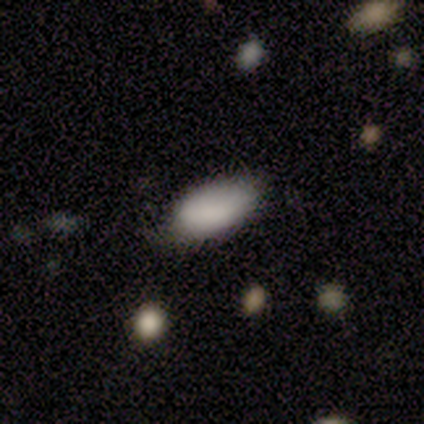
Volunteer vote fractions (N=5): Overall: smooth (80%). How rounded: in between (50%; round 25%). Merging: minor disturbance (60%; none 40%).